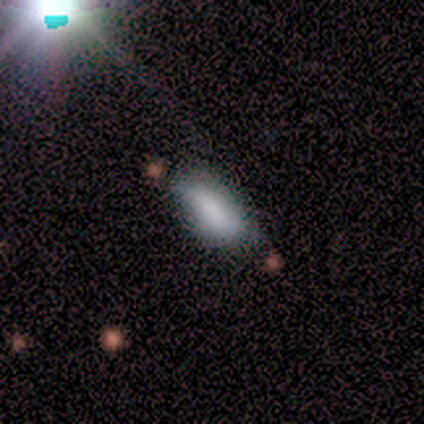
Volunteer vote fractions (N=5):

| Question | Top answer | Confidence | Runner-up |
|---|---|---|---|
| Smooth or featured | smooth | 80% | star or artifact (20%) |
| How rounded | in between | 75% | cigar-shaped (25%) |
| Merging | none | 50% | tied: minor disturbance (50%) |